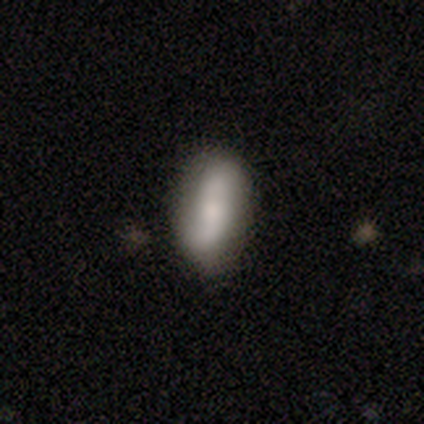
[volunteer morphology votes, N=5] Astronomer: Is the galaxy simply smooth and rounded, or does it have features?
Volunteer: featured or disk — 100%.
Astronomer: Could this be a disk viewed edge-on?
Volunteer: no — 100%.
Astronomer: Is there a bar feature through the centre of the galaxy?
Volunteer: weak — 40%, tied with no at 40%.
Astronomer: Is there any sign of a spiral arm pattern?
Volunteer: yes — 100%.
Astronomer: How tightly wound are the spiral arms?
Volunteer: loose — 100%.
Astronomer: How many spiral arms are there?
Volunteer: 2 — 100%.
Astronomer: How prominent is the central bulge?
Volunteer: moderate — 40%, tied with small at 40%.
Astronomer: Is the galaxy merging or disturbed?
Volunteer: none — 80%.